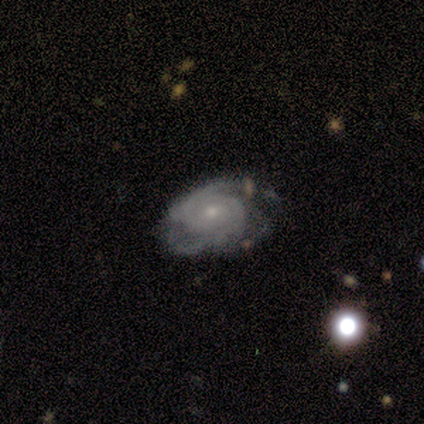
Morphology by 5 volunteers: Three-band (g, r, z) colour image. It shows a featured or disk galaxy (80%) with no bar (100%), 2 (50%) tight (75%) spiral arms (100%) and a small central bulge (75%). Merging: none (80%).